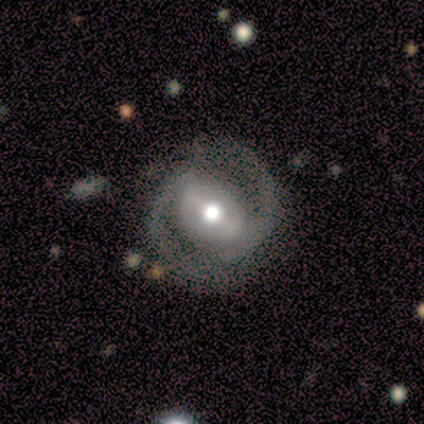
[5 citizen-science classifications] Morphology: type=featured or disk (100%); edge-on=no (100%); bar=weak (60%); spiral arms=yes (100%); winding=tight (60%); arm count=2 (100%); bulge=moderate (80%); merging=none (100%).